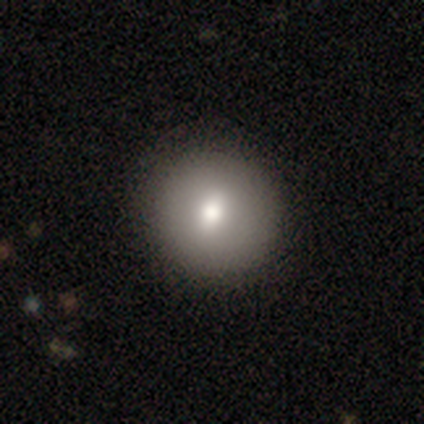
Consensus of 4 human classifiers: Smooth or featured? smooth (100%)
How rounded? round (75%)
Merging? none (100%)